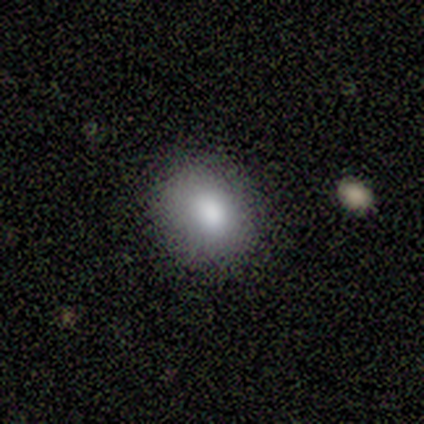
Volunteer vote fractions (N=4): A smooth galaxy with no disk features (75%) that is in between round and cigar-shaped (100%). Merging: major disturbance (50%).